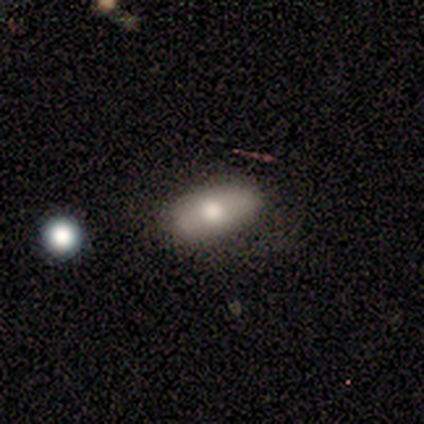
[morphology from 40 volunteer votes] Smooth or featured: smooth — 52% (featured or disk — 32%)
How rounded: in between — 100%
Merging: none — 53% (minor disturbance — 6%)